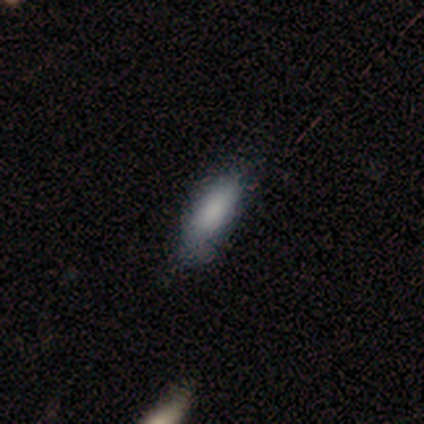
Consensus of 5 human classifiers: Volunteers were most divided on "merging": none: 60%, minor disturbance: 20%, merger: 20%, major disturbance: 0%. More confident: smooth or featured — smooth (100%); how rounded — in between (100%).